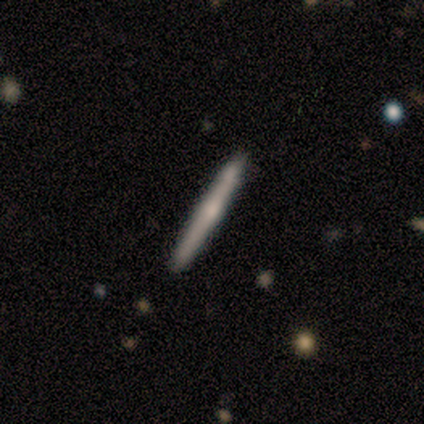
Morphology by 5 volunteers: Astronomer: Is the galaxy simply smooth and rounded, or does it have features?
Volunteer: featured or disk — 80%.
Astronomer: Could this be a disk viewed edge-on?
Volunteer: yes — 100%.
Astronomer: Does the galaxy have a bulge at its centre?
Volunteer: none — 50%.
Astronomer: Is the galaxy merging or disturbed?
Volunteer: none — 80%.